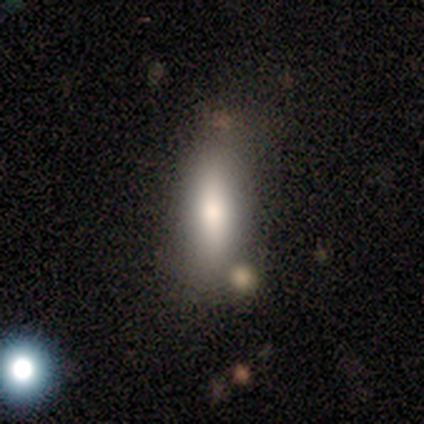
smooth_or_featured: smooth (p=1.00)
how_rounded: in between (p=0.75) [alt: cigar-shaped p=0.25]
merging: none (p=1.00)